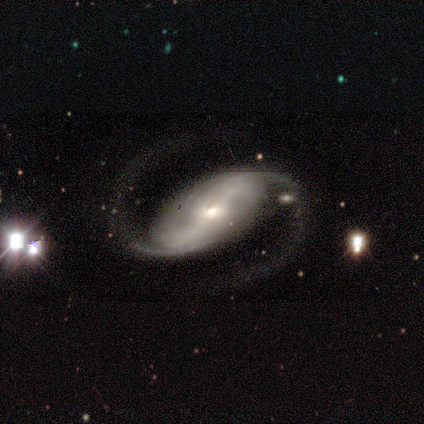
A featured or disk galaxy (80%) with a weak bar (50%), 2 (100%) medium (50%, tied with loose) spiral arms (100%) and a small central bulge (75%).

Vote fractions:
- Smooth or featured? featured or disk: 80% / smooth: 20% / star or artifact: 0%
- Edge-on disk? no: 100% / yes: 0%
- Bar? weak: 50% / strong: 25% / no: 25%
- Spiral arms? yes: 100% / no: 0%
- Spiral winding? medium: 50% (tied) / loose: 50% (tied) / tight: 0%
- Spiral arm count? 2: 100% / 1: 0% / 3: 0% / 4: 0% / more than 4: 0% / can't tell: 0%
- Bulge size? small: 75% / large: 25% / dominant: 0% / moderate: 0% / none: 0%
- Merging? none: 40% (tied) / major disturbance: 40% (tied) / minor disturbance: 20% / merger: 0%